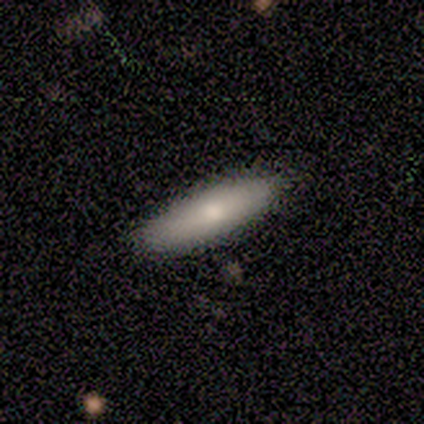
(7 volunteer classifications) A smooth galaxy with no disk features (71%) that is cigar-shaped (100%).

Vote fractions:
- Smooth or featured? smooth: 71% / featured or disk: 14% / star or artifact: 14%
- How rounded? cigar-shaped: 100% / round: 0% / in between: 0%
- Merging? none: 100% / minor disturbance: 0% / major disturbance: 0% / merger: 0%